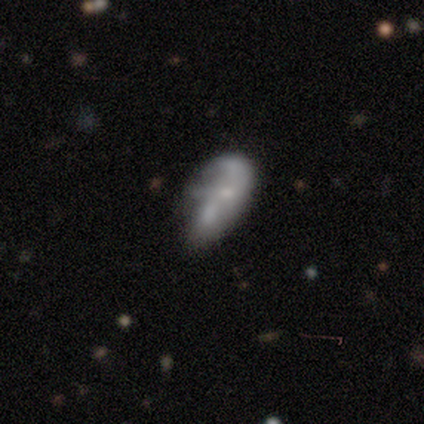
This is possibly a featured or disk galaxy (55%). It is clearly not viewed edge-on (100%). Bar: clearly no (82%). Spiral arm pattern: likely no (61%). Central bulge: marginally none (43%). Merging: marginally minor disturbance (35%).